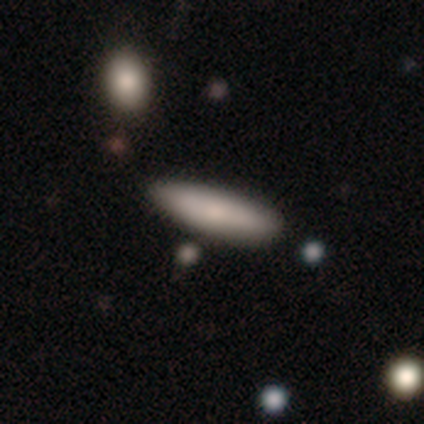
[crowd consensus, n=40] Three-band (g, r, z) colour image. It shows a smooth galaxy with no disk features (68%) that is cigar-shaped (85%). Merging: none (80%).